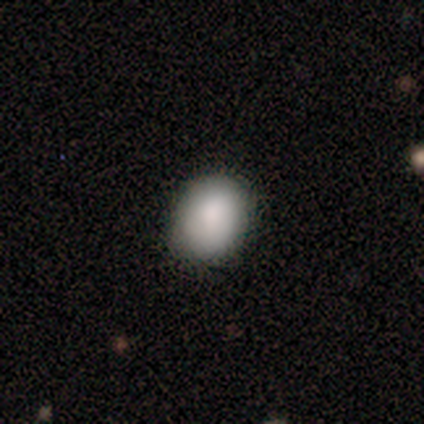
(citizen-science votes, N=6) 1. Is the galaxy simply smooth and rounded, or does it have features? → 100% smooth, 0% featured or disk, 0% star or artifact.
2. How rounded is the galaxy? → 50% round (tied), 50% in between (tied), 0% cigar-shaped.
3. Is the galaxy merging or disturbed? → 100% none, 0% minor disturbance, 0% major disturbance, 0% merger.